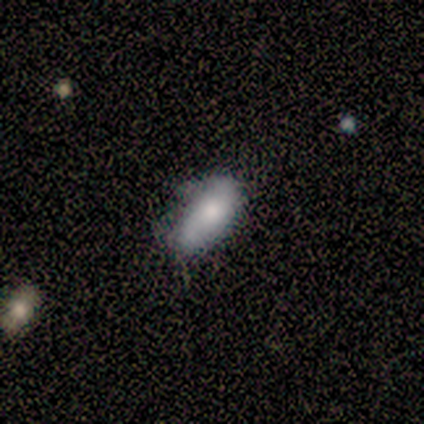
Q: Smooth or featured?
A: smooth (100%)
Q: How rounded?
A: in between (50%); tied with: cigar-shaped (50%)
Q: Merging?
A: none (75%); runner-up: minor disturbance (25%)